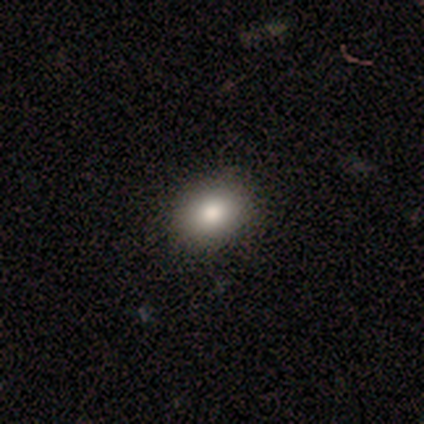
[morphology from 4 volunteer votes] Volunteers were most divided on "smooth or featured": smooth: 75%, star or artifact: 25%, featured or disk: 0%. More confident: how rounded — in between (100%); merging — none (100%).